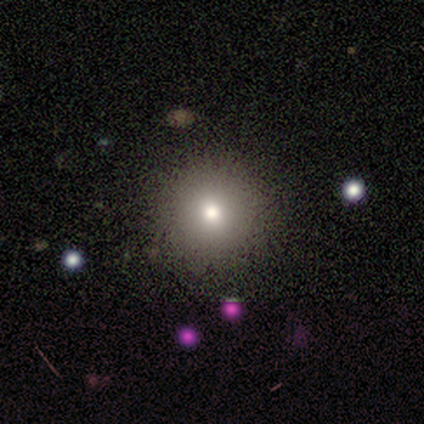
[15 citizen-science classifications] Smooth or featured? 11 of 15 (73%) said smooth. How rounded? 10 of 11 (91%) said round. Merging? 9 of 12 (75%) said none.